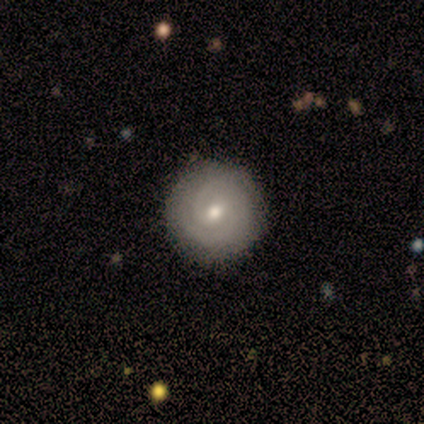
A featured or disk galaxy (100%) with no bar (60%), 2 (70%) tight (90%) spiral arms (100%) and a small central bulge (60%).

Vote fractions:
- Smooth or featured? featured or disk: 100% / smooth: 0% / star or artifact: 0%
- Edge-on disk? no: 100% / yes: 0%
- Bar? no: 60% / weak: 40% / strong: 0%
- Spiral arms? yes: 100% / no: 0%
- Spiral winding? tight: 90% / medium: 10% / loose: 0%
- Spiral arm count? 2: 70% / can't tell: 20% / 3: 10% / 1: 0% / 4: 0% / more than 4: 0%
- Bulge size? small: 60% / moderate: 40% / dominant: 0% / large: 0% / none: 0%
- Merging? none: 90% / minor disturbance: 10% / major disturbance: 0% / merger: 0%